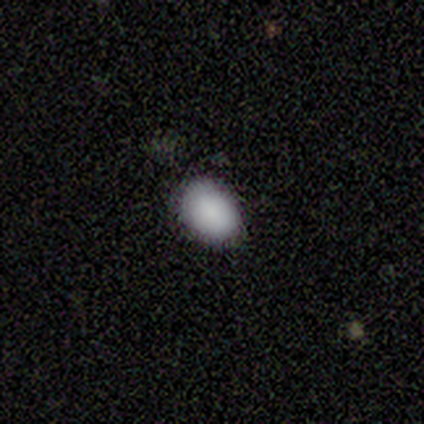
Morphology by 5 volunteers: This appears to be a smooth galaxy with no disk features (100%) that is in between round and cigar-shaped (80%). Merging: none (100%).